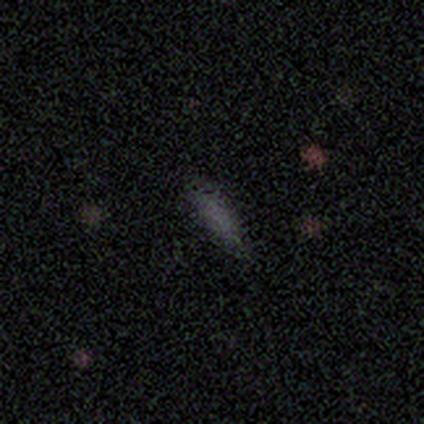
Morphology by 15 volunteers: smooth_or_featured: smooth (p=0.80) [alt: star or artifact p=0.20]
how_rounded: cigar-shaped (p=0.67) [alt: in between p=0.33]
merging: none (p=0.92) [alt: minor disturbance p=0.08]